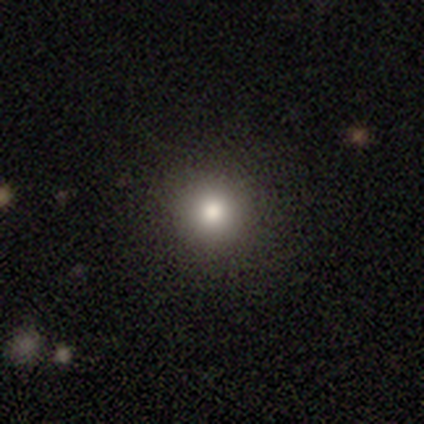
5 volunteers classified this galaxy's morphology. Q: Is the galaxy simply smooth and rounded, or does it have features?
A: smooth — 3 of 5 (60%).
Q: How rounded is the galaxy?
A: round — 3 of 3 (100%).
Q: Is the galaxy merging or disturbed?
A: none — 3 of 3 (100%).